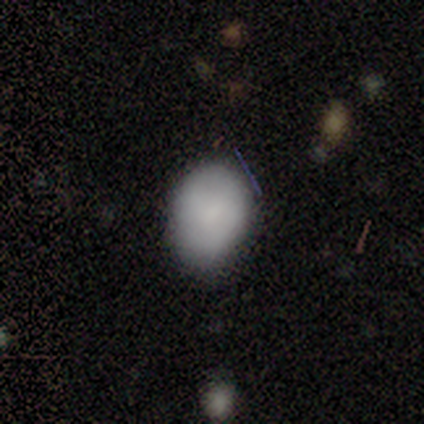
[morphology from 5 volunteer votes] This appears to be a smooth galaxy with no disk features (100%) that is in between round and cigar-shaped (100%). Merging: none (60%).